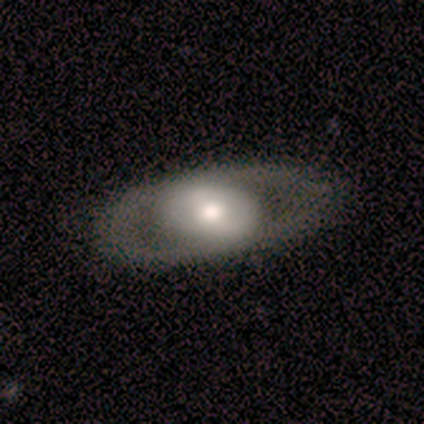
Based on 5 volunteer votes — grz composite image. It shows a featured or disk galaxy (60%) with no bar (100%), no spiral arms (100%) and a moderate central bulge (100%). Merging: none (80%).